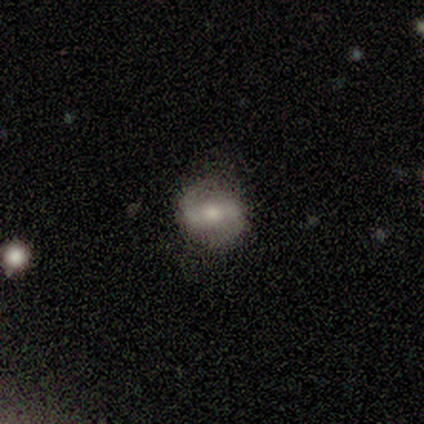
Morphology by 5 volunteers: smooth 60%, featured or disk 40%, star or artifact 0%. Down the decision tree: how rounded — round (67%); merging — none (80%).